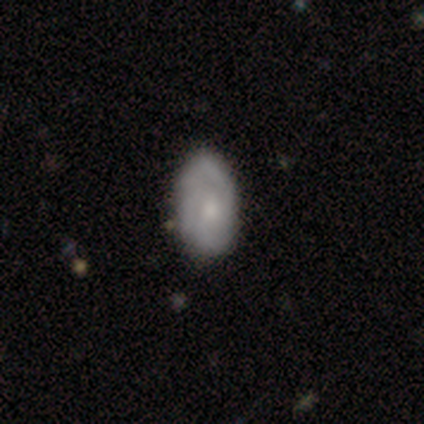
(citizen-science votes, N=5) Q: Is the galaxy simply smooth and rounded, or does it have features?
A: featured or disk — 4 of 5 (80%).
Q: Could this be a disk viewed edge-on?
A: no — 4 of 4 (100%).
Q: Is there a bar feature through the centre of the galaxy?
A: no — 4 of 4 (100%).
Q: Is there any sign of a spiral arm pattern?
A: yes — 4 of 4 (100%).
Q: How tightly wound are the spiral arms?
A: tight — 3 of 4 (75%).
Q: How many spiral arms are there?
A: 2 — 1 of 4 (25%, tied with 3, more than 4 and can't tell).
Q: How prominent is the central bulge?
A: moderate — 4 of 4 (100%).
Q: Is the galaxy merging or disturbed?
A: none — 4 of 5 (80%).